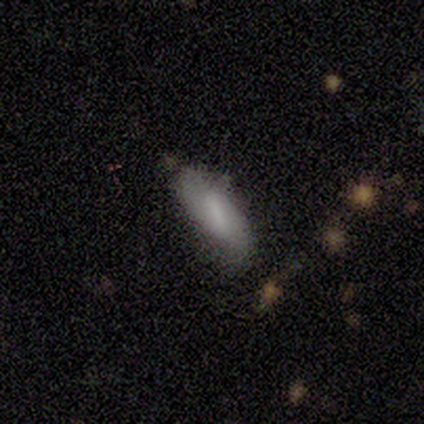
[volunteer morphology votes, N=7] This is clearly a smooth galaxy (100%). How rounded: possibly in between (57%). Merging: marginally none (43%, tied with minor disturbance).